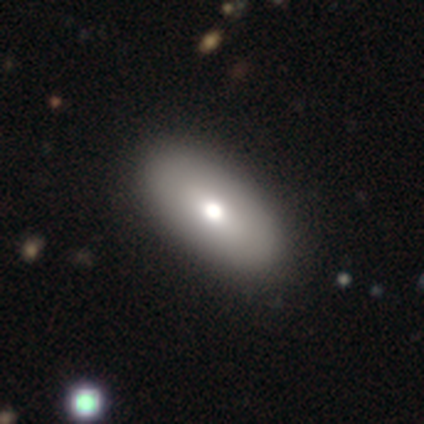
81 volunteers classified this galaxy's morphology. smooth_or_featured: smooth (p=0.73) [alt: featured or disk p=0.21]
how_rounded: in between (p=0.98) [alt: round p=0.02]
merging: none (p=0.46) [alt: minor disturbance p=0.04]